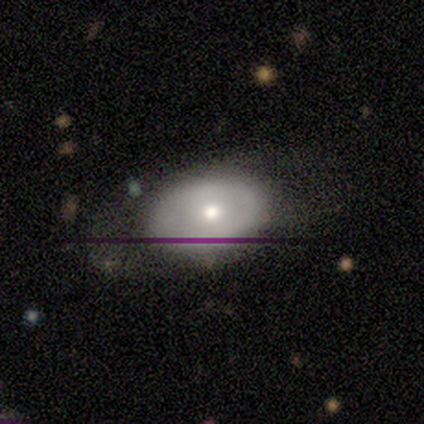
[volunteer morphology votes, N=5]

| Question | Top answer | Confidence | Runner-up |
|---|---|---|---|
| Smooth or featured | featured or disk | 60% | smooth (40%) |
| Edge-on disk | no | 100% | — |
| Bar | no | 100% | — |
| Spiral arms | no | 100% | — |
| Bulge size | small | 67% | moderate (33%) |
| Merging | none | 80% | minor disturbance (20%) |